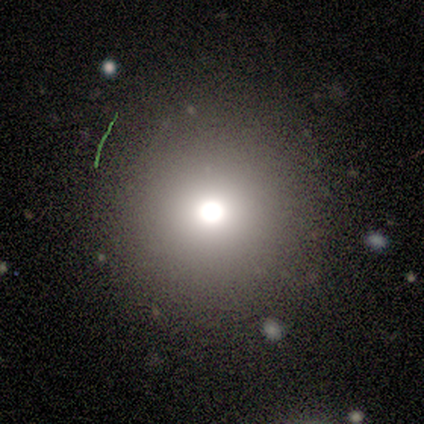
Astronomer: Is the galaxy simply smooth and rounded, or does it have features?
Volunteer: smooth — 75%.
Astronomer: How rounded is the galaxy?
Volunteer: round — 100%.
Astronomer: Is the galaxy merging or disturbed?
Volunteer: none — 100%.